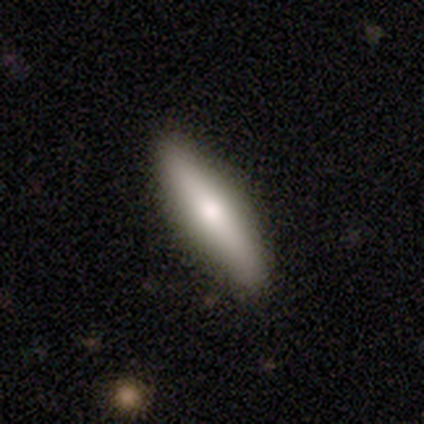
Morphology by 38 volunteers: smooth 66%, featured or disk 34%, star or artifact 0%. Down the decision tree: how rounded — cigar-shaped (80%); merging — none (92%).